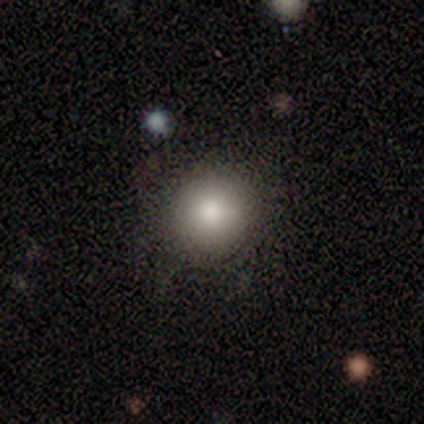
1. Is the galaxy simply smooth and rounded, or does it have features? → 74% smooth, 15% featured or disk, 10% star or artifact.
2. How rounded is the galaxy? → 93% round, 7% in between, 0% cigar-shaped.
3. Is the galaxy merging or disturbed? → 89% none, 6% minor disturbance, 3% major disturbance, 3% merger.